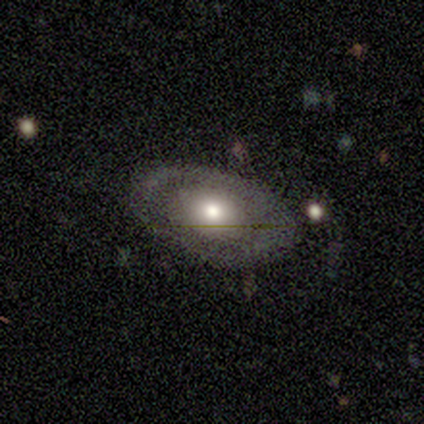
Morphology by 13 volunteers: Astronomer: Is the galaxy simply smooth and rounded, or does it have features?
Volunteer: featured or disk — 54% (runner-up: smooth, 31%).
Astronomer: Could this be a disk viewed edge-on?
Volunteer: no — 86%.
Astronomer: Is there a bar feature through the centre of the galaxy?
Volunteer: no — 67%.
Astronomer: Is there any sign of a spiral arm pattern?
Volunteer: no — 100%.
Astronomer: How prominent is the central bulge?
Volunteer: moderate — 50% (runner-up: small, 33%).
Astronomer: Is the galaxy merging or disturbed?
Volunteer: none — 82%.